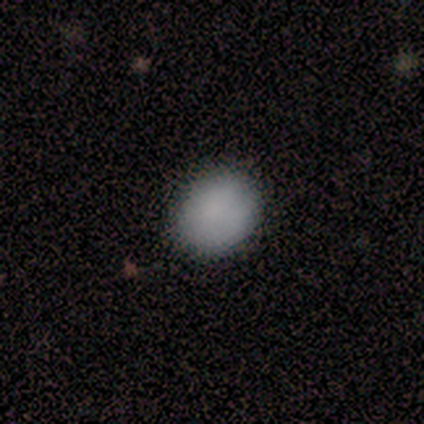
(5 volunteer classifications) smooth 100%, featured or disk 0%, star or artifact 0%. Down the decision tree: how rounded — round (60%); merging — none (100%).